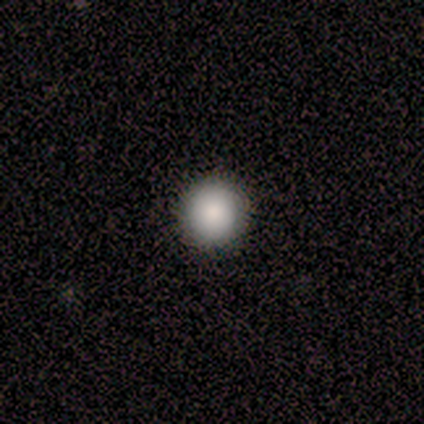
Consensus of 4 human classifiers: Morphology: type=smooth (100%); roundness=round (100%); merging=none (100%).